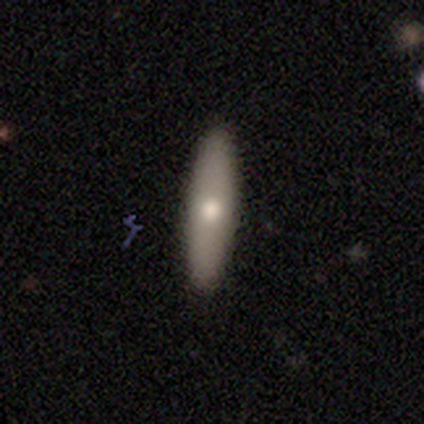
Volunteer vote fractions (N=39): Smooth or featured? smooth (69%)
How rounded? cigar-shaped (85%)
Merging? none (89%)